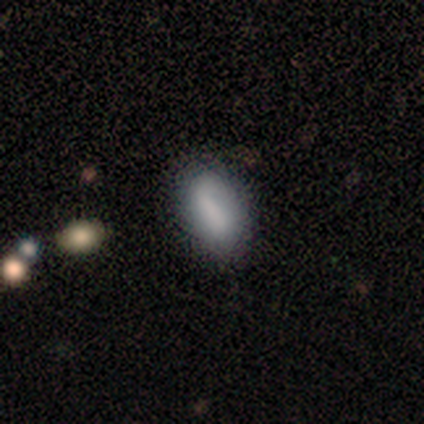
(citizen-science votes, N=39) Volunteers were most divided on "smooth or featured": smooth: 64%, featured or disk: 33%, star or artifact: 3%. More confident: how rounded — in between (84%); merging — none (71%).